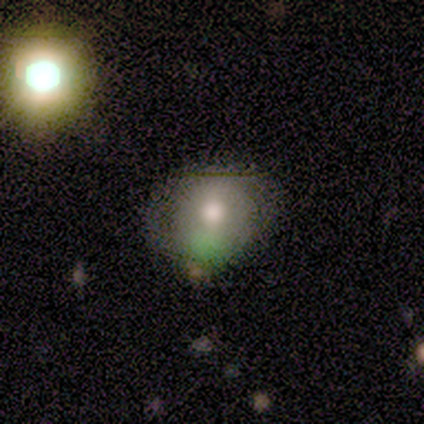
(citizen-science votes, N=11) Overall: smooth (55%; featured or disk 27%). How rounded: round (100%). Merging: none (78%).